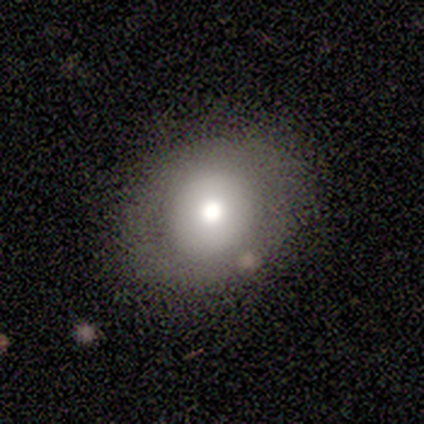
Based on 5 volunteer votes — smooth-or-featured: smooth: 80% | featured or disk: 20% | star or artifact: 0%
  how-rounded: in between: 75% | round: 25% | cigar-shaped: 0%
  merging: none: 100% | minor disturbance: 0% | major disturbance: 0% | merger: 0%